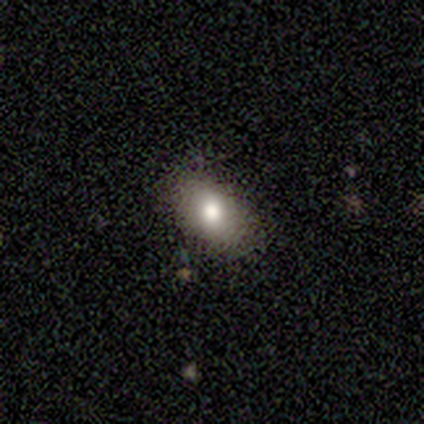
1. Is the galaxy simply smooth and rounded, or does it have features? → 75% smooth, 25% featured or disk, 0% star or artifact.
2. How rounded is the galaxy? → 100% in between, 0% round, 0% cigar-shaped.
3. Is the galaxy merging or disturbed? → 100% none, 0% minor disturbance, 0% major disturbance, 0% merger.